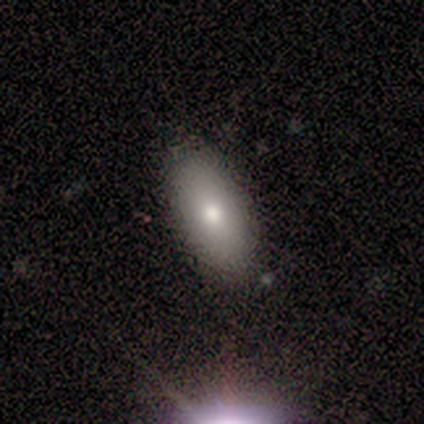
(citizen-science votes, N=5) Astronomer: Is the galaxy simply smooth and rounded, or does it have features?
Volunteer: smooth — 60% (runner-up: featured or disk, 40%).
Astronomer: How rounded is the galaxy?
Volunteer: in between — 100%.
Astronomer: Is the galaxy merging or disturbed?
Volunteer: none — 100%.